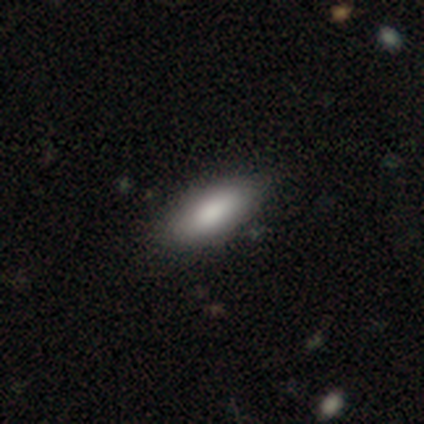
smooth 60%, featured or disk 40%, star or artifact 0%. Down the decision tree: how rounded — in between (67%); merging — none (60%).